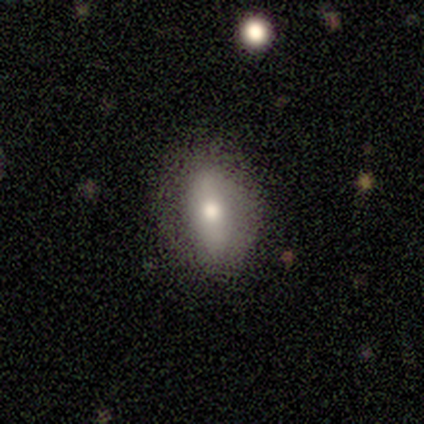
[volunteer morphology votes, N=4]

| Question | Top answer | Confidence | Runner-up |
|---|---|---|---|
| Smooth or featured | smooth | 75% | featured or disk (25%) |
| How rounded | in between | 100% | — |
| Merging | none | 75% | minor disturbance (25%) |